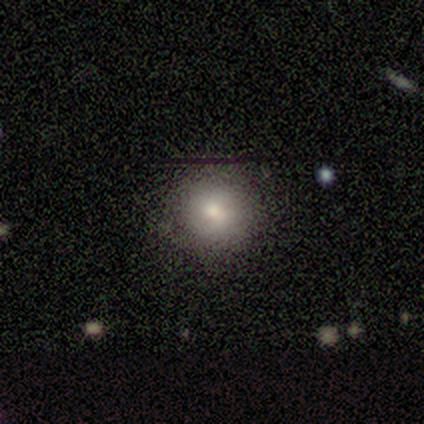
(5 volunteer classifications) Smooth or featured? smooth (100%)
How rounded? round (100%)
Merging? none (80%)